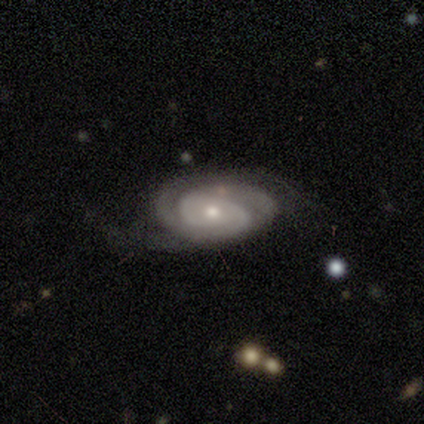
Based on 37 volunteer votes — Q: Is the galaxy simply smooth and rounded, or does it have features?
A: featured or disk — 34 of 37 (92%).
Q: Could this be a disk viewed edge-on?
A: no — 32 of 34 (94%).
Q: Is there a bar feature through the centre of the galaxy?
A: no — 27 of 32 (84%).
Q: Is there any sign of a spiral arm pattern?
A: yes — 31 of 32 (97%).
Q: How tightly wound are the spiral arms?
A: tight — 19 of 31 (61%).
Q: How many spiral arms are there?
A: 2 — 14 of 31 (45%).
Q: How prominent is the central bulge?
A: small — 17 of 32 (53%).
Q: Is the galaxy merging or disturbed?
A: none — 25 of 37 (68%).